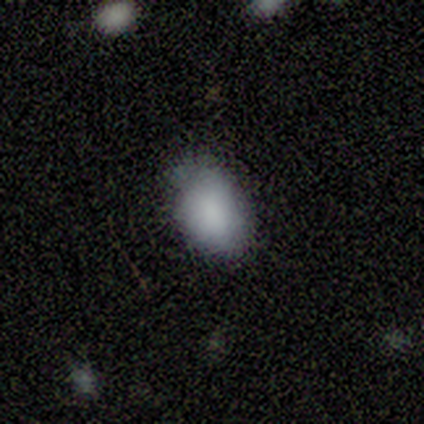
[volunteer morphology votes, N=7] Smooth or featured: smooth — 100%
How rounded: in between — 100%
Merging: none — 57% (minor disturbance — 43%)